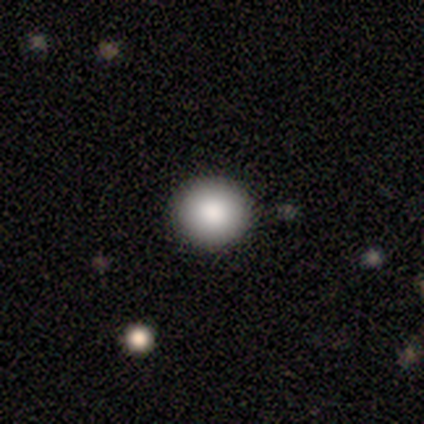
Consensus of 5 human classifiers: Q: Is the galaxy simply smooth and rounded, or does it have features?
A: smooth — 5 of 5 (100%).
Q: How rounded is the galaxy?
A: round — 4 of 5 (80%).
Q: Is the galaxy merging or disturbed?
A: none — 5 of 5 (100%).